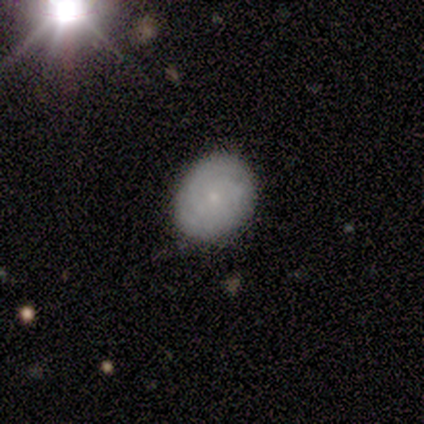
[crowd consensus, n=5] Morphology: type=smooth (60%); roundness=round (67%); merging=none (60%).